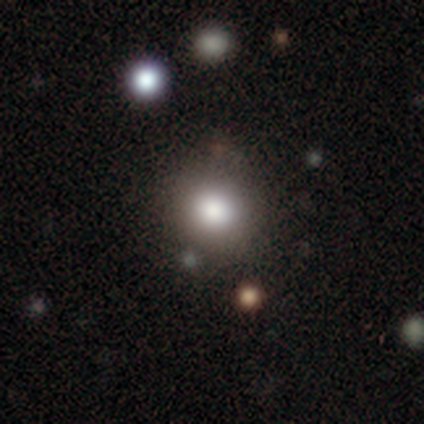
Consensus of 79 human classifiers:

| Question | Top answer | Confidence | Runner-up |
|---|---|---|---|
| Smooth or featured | smooth | 89% | star or artifact (8%) |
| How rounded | round | 93% | in between (7%) |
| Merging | none | 40% | merger (7%) |